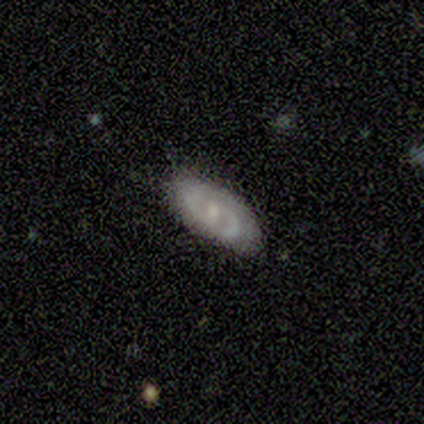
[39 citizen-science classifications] featured or disk 74%, smooth 21%, star or artifact 5%. Down the decision tree: edge-on disk — no (86%); bar — weak (44%); spiral arms — yes (96%); spiral arm count — 2 (92%); spiral winding — medium (54%); bulge size — small (56%); merging — none (73%).